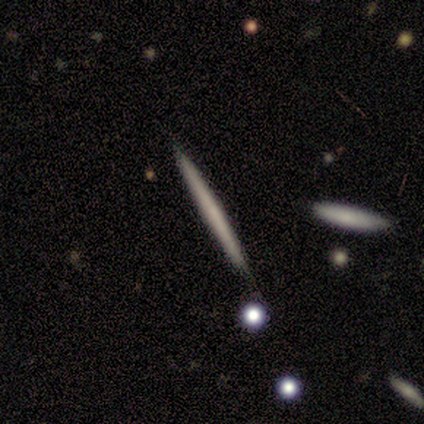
Morphology: type=featured or disk (56%); edge-on=yes (100%); edge-on bulge=none (95%); merging=none (97%).